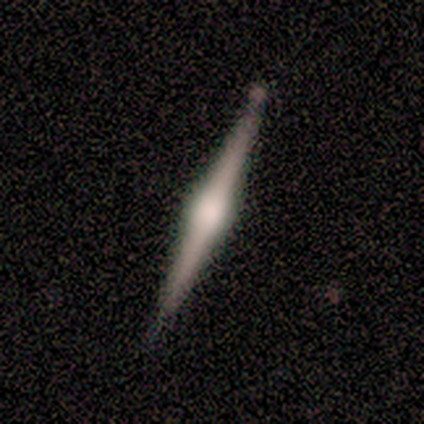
This is clearly a featured or disk galaxy (100%). It is clearly viewed edge-on (100%). Edge-on bulge: clearly rounded (80%). Merging: likely minor disturbance (60%).